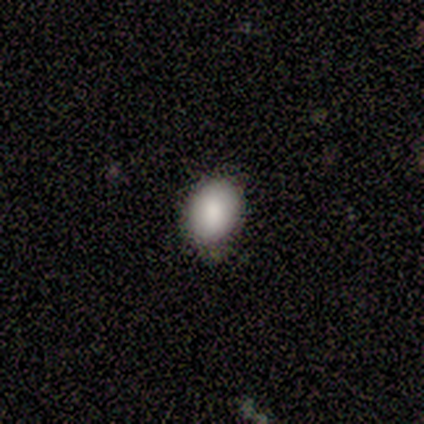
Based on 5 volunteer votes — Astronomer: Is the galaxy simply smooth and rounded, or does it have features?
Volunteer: smooth — 100%.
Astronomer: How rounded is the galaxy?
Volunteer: in between — 80%.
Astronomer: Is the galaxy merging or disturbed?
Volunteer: none — 60% (runner-up: minor disturbance, 40%).